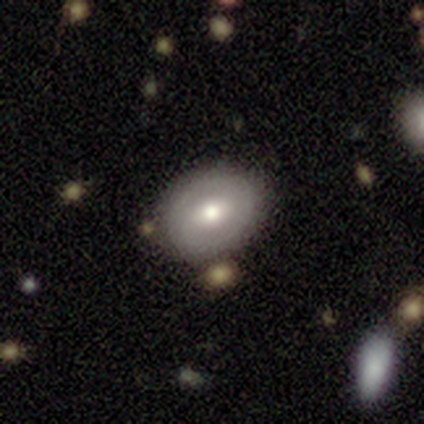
Q: Smooth or featured?
A: smooth (57%); runner-up: featured or disk (35%)
Q: How rounded?
A: in between (66%); runner-up: round (34%)
Q: Merging?
A: none (44%); runner-up: minor disturbance (4%)